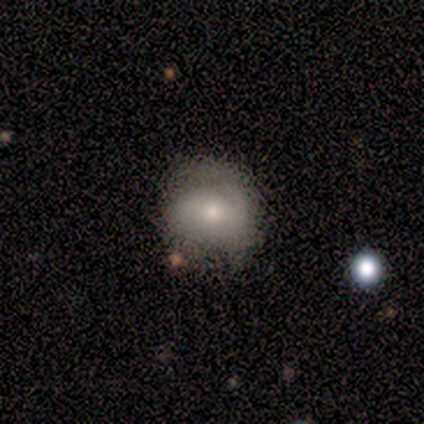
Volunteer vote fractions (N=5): A featured or disk galaxy (80%) with a weak bar (75%), medium (75%) spiral arms (100%) and a moderate central bulge (75%).

Vote fractions:
- Smooth or featured? featured or disk: 80% / smooth: 20% / star or artifact: 0%
- Edge-on disk? no: 100% / yes: 0%
- Bar? weak: 75% / strong: 25% / no: 0%
- Spiral arms? yes: 100% / no: 0%
- Spiral winding? medium: 75% / tight: 25% / loose: 0%
- Spiral arm count? can't tell: 50% / 1: 25% / 2: 25% / 3: 0% / 4: 0% / more than 4: 0%
- Bulge size? moderate: 75% / small: 25% / dominant: 0% / large: 0% / none: 0%
- Merging? minor disturbance: 60% / none: 20% / major disturbance: 20% / merger: 0%